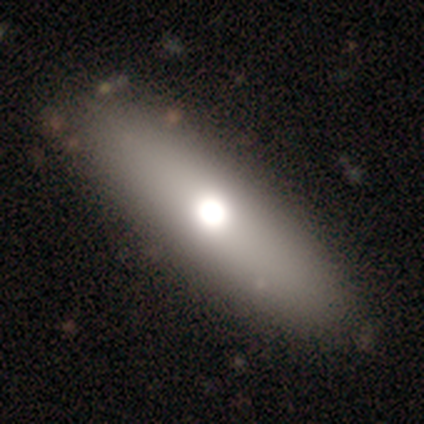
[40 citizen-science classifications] smooth 70%, featured or disk 25%, star or artifact 5%. Down the decision tree: how rounded — cigar-shaped (54%); merging — none (50%).